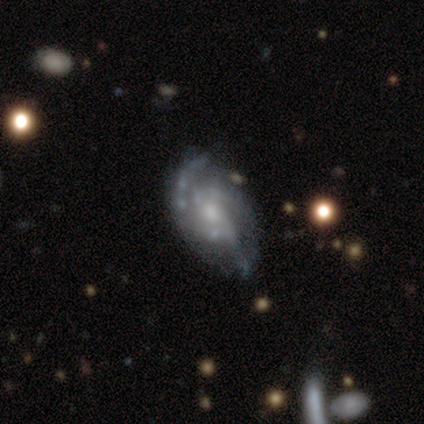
This appears to be a featured or disk galaxy (77%) with no bar (75%), medium (52%) spiral arms (75%) and a small central bulge (61%). Merging: none (61%).